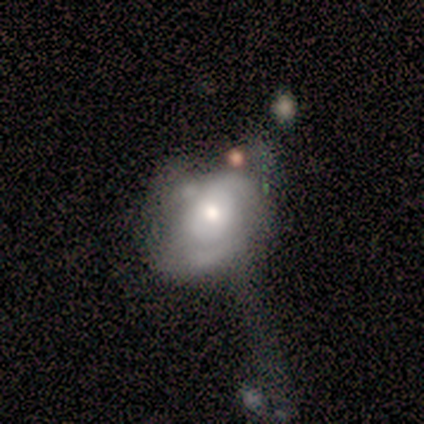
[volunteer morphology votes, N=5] A smooth galaxy with no disk features (60%) that is in between round and cigar-shaped (100%).

Vote fractions:
- Smooth or featured? smooth: 60% / featured or disk: 40% / star or artifact: 0%
- How rounded? in between: 100% / round: 0% / cigar-shaped: 0%
- Merging? none: 60% / major disturbance: 40% / minor disturbance: 0% / merger: 0%